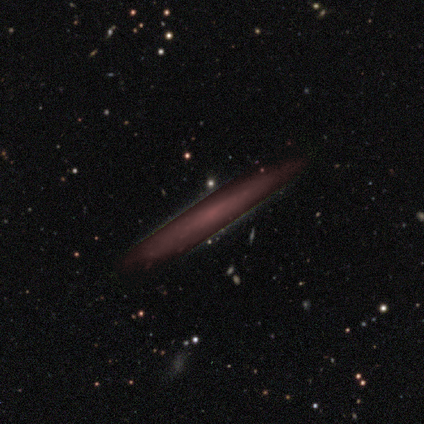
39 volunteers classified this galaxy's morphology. Smooth or featured? 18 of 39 (46%) said star or artifact.